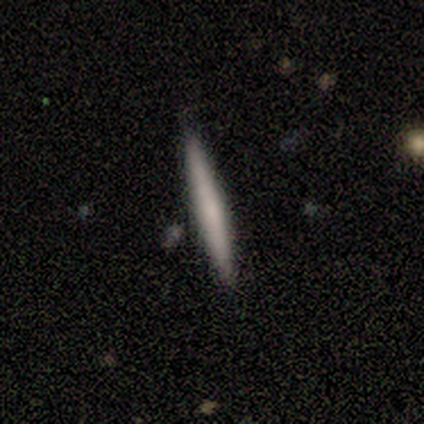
Q: Smooth or featured?
A: smooth (100%)
Q: How rounded?
A: cigar-shaped (100%)
Q: Merging?
A: none (75%); runner-up: merger (25%)